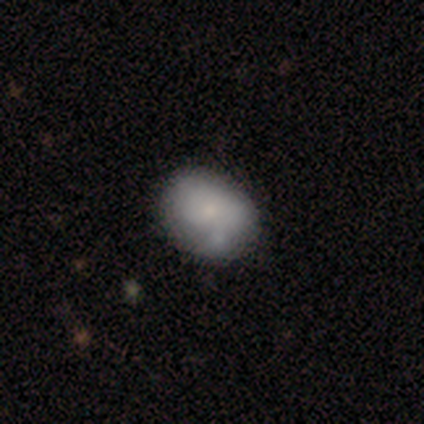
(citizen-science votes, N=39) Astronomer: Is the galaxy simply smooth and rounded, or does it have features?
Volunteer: smooth — 69%.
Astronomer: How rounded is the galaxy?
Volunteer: in between — 81%.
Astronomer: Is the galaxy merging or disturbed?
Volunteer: none — 39% (runner-up: minor disturbance, 24%).